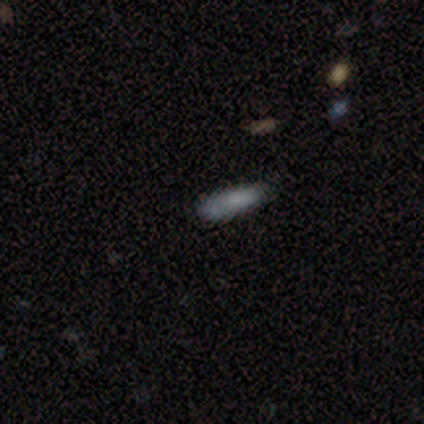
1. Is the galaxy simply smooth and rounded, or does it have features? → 100% smooth, 0% featured or disk, 0% star or artifact.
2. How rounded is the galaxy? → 50% in between (tied), 50% cigar-shaped (tied), 0% round.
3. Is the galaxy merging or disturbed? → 100% none, 0% minor disturbance, 0% major disturbance, 0% merger.